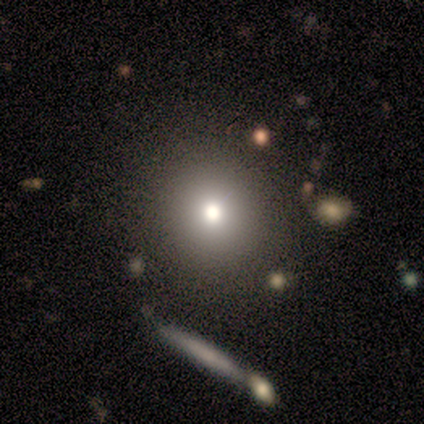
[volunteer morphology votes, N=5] This is likely a smooth galaxy (60%). How rounded: likely round (67%). Merging: clearly none (100%).